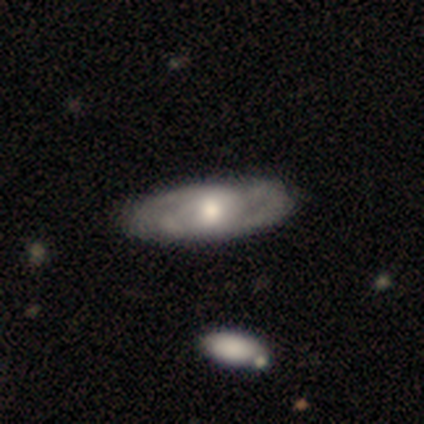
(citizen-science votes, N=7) A smooth galaxy with no disk features (43%, tied with featured or disk) that is in between round and cigar-shaped (100%). Merging: none (50%, tied with minor disturbance).